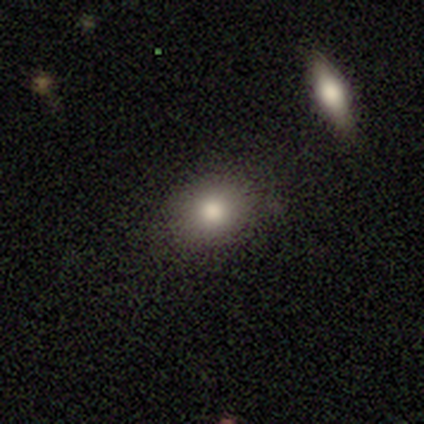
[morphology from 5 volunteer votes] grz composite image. It shows a smooth galaxy with no disk features (80%) that is in between round and cigar-shaped (100%). Merging: none (75%).